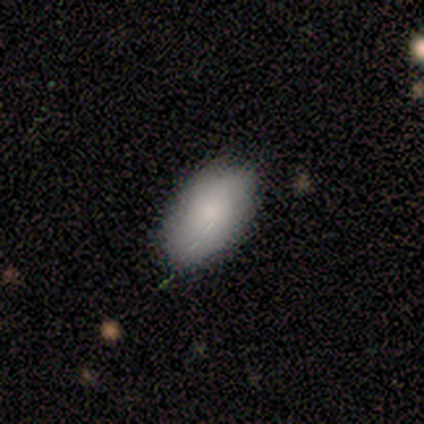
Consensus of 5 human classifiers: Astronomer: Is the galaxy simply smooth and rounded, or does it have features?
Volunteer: smooth — 100%.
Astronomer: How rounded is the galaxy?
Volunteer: in between — 80%.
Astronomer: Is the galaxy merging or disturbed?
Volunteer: none — 100%.